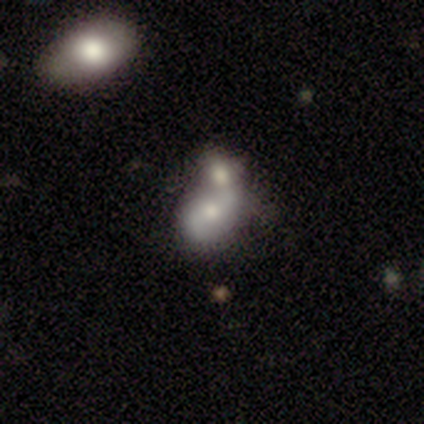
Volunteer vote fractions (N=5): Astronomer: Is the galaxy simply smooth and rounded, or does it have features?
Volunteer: featured or disk — 60%.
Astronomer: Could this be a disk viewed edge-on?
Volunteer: no — 100%.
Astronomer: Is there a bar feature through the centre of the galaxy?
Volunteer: no — 100%.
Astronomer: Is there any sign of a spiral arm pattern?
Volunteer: yes — 67%.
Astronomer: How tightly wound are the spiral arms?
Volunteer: loose — 100%.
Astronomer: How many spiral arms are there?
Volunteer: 2 — 100%.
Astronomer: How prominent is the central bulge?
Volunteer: none — 67%.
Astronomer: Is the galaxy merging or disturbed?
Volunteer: major disturbance — 50%, tied with merger at 50%.